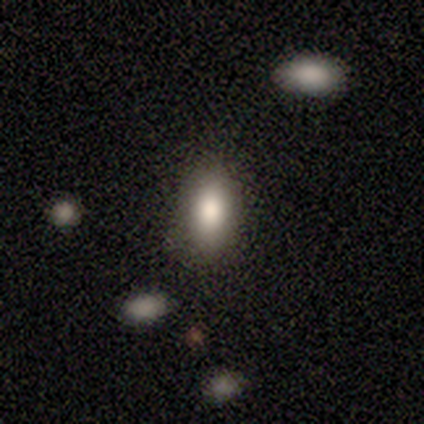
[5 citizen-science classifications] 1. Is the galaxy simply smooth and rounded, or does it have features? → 100% smooth, 0% featured or disk, 0% star or artifact.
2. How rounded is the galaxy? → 80% in between, 20% round, 0% cigar-shaped.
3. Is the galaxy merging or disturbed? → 40% minor disturbance, 20% none, 20% major disturbance, 20% merger.